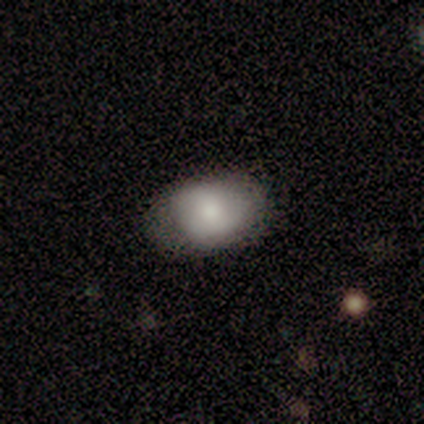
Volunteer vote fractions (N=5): Morphology: type=smooth (80%); roundness=in between (100%); merging=none (60%).